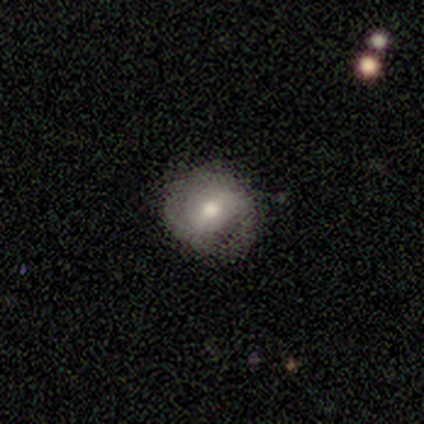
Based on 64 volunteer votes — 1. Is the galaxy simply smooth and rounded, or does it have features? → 47% smooth, 45% featured or disk, 8% star or artifact.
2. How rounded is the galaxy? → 80% round, 17% in between, 3% cigar-shaped.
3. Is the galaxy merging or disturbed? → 51% none, 37% minor disturbance, 10% major disturbance, 2% merger.